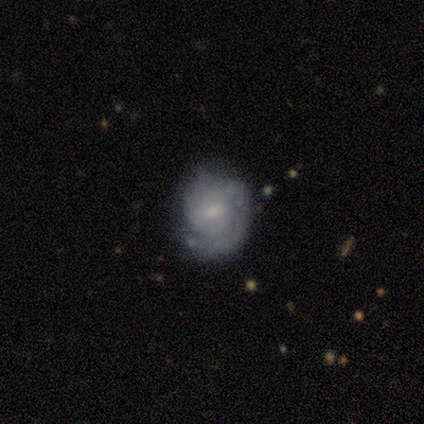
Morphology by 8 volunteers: Smooth or featured? 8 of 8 (100%) said featured or disk. Edge-on disk? 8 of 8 (100%) said no. Bar? 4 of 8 (50%, tied with no) said weak. Spiral arms? 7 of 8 (88%) said yes. Spiral winding? 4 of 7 (57%) said tight. Spiral arm count? 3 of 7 (43%) said 2. Bulge size? 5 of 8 (62%) said small. Merging? 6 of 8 (75%) said none.